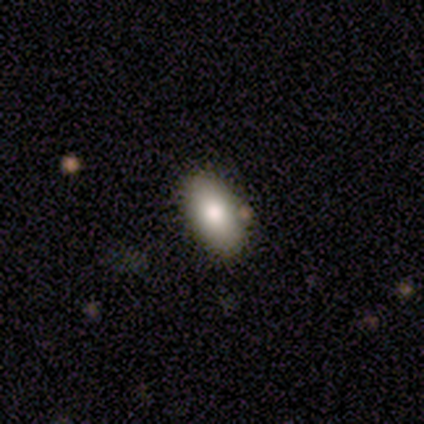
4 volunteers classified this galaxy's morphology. smooth-or-featured: smooth: 100% | featured or disk: 0% | star or artifact: 0%
  how-rounded: in between: 100% | round: 0% | cigar-shaped: 0%
  merging: none: 100% | minor disturbance: 0% | major disturbance: 0% | merger: 0%